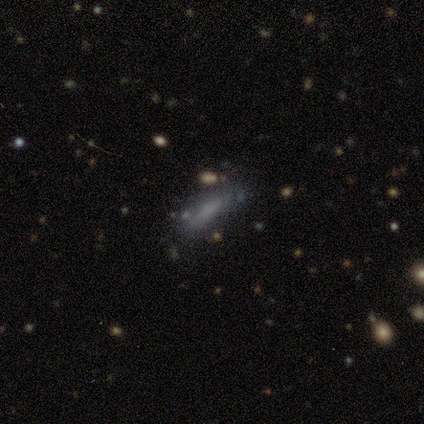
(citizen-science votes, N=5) Q: Smooth or featured?
A: featured or disk (60%); runner-up: smooth (40%)
Q: Edge-on disk?
A: no (100%)
Q: Bar?
A: no (67%); runner-up: strong (33%)
Q: Spiral arms?
A: no (100%)
Q: Bulge size?
A: dominant (33%); tied with: moderate (33%); none (33%)
Q: Merging?
A: none (60%); runner-up: minor disturbance (20%)